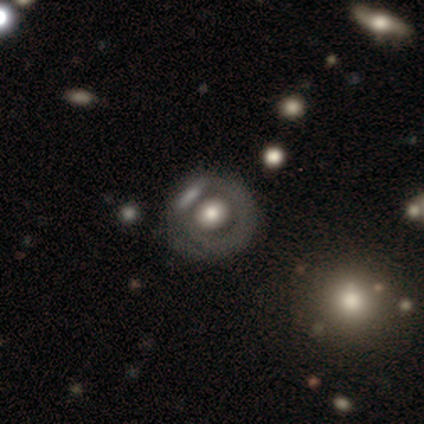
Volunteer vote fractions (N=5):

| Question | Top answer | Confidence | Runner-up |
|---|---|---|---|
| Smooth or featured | featured or disk | 60% | smooth (40%) |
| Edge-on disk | no | 100% | — |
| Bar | no | 67% | weak (33%) |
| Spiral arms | no | 67% | yes (33%) |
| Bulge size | moderate | 100% | — |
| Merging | none | 80% | minor disturbance (20%) |